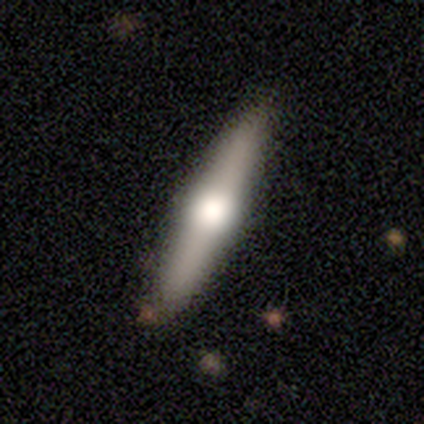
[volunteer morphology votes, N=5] Smooth or featured?
  - featured or disk: 60% *
  - smooth: 40%
  - star or artifact: 0%
Edge-on disk?
  - yes: 100% *
  - no: 0%
Edge-on bulge?
  - rounded: 100% *
  - boxy: 0%
  - none: 0%
Merging?
  - none: 100% *
  - minor disturbance: 0%
  - major disturbance: 0%
  - merger: 0%